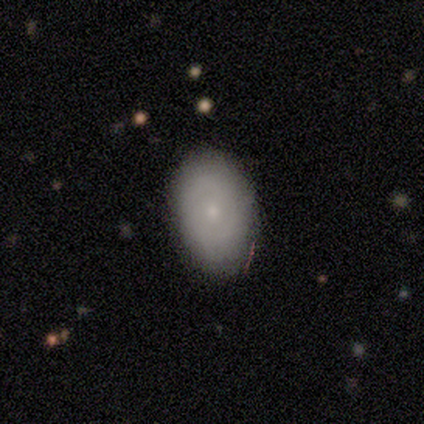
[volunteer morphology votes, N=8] smooth_or_featured: featured or disk (p=0.62) [alt: smooth p=0.38]
disk_edge_on: no (p=1.00)
bar: no (p=1.00)
has_spiral_arms: no (p=1.00)
bulge_size: small (p=0.80) [alt: moderate p=0.20]
merging: none (p=1.00)